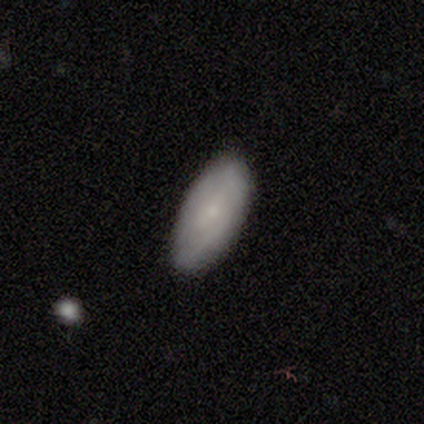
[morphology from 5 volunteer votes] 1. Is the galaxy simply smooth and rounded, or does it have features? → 100% smooth, 0% featured or disk, 0% star or artifact.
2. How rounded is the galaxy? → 100% in between, 0% round, 0% cigar-shaped.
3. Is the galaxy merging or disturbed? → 80% none, 20% minor disturbance, 0% major disturbance, 0% merger.